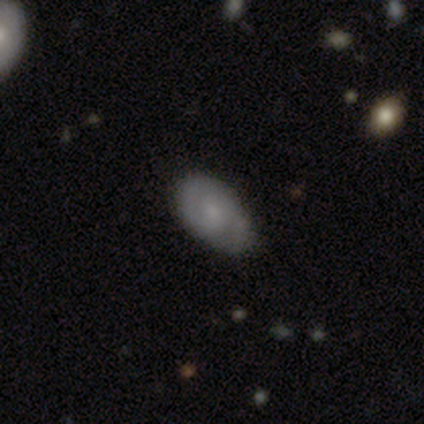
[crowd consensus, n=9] smooth 56%, featured or disk 44%, star or artifact 0%. Down the decision tree: how rounded — in between (100%); merging — none (89%).